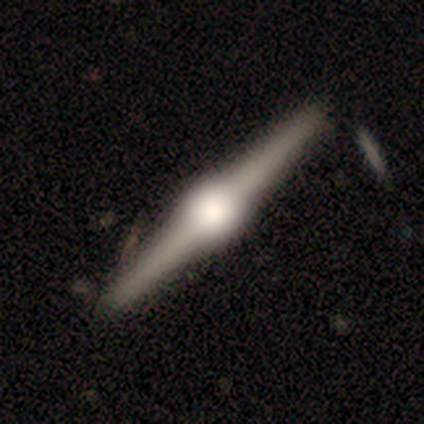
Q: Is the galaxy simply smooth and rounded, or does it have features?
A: featured or disk — 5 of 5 (100%).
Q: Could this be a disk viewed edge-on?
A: yes — 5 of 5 (100%).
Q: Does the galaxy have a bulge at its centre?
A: rounded — 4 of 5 (80%).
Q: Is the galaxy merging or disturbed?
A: none — 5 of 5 (100%).